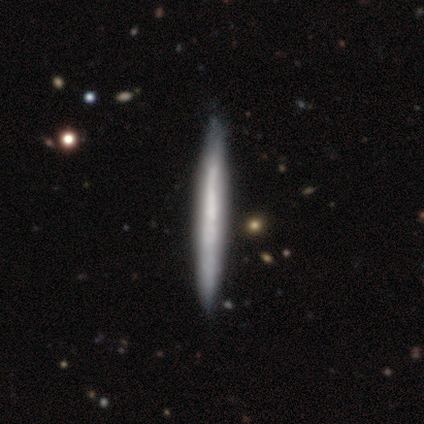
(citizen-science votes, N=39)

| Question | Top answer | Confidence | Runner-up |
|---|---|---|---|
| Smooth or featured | featured or disk | 51% | smooth (49%) |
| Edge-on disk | yes | 90% | no (10%) |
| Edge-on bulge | none | 100% | — |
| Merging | none | 67% | major disturbance (5%) |